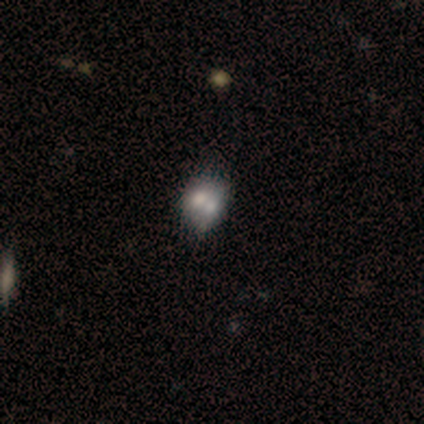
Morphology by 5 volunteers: Smooth or featured?
  - smooth: 60% *
  - featured or disk: 20%
  - star or artifact: 20%
How rounded?
  - in between: 67% *
  - round: 33%
  - cigar-shaped: 0%
Merging?
  - merger: 75% *
  - none: 25%
  - minor disturbance: 0%
  - major disturbance: 0%